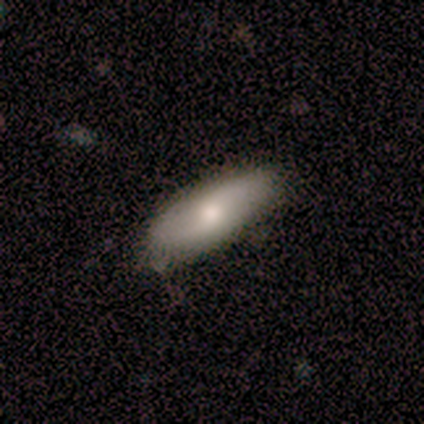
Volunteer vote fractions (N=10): This is possibly a smooth galaxy (50%). How rounded: clearly in between (80%). Merging: clearly none (89%).